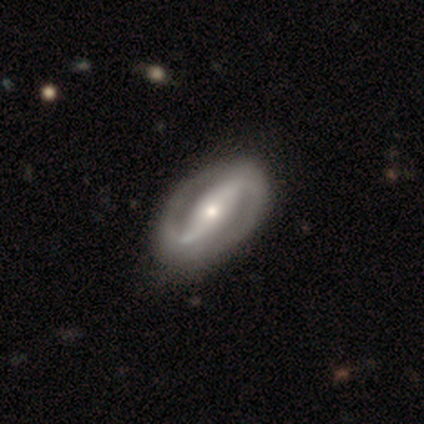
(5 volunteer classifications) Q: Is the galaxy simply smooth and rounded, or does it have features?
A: featured or disk — 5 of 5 (100%).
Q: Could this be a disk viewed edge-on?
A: no — 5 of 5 (100%).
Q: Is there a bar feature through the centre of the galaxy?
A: strong — 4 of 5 (80%).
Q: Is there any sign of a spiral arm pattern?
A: yes — 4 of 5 (80%).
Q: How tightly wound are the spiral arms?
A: medium — 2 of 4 (50%).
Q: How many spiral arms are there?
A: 2 — 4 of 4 (100%).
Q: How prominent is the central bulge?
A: small — 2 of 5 (40%).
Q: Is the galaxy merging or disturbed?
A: none — 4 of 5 (80%).